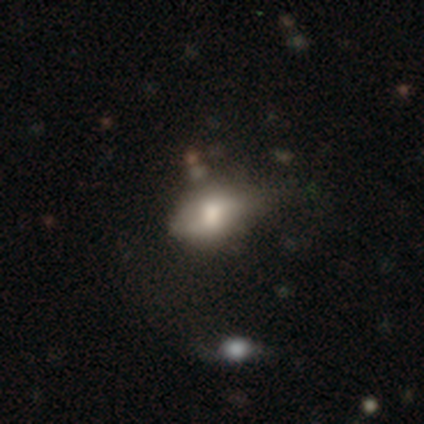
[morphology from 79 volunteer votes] Smooth or featured? 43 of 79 (54%) said smooth. How rounded? 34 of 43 (79%) said in between. Merging? 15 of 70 (21%) said minor disturbance.